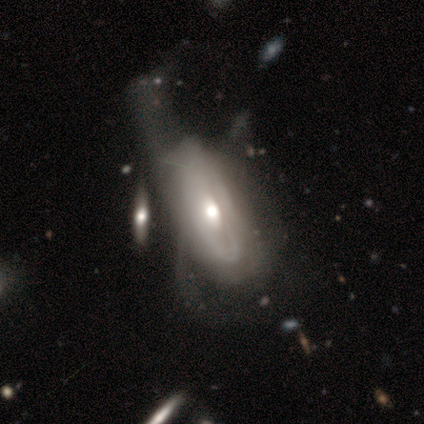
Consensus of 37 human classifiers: Smooth or featured? featured or disk (78%)
Edge-on disk? no (97%)
Bar? no (71%)
Spiral arms? yes (54%)
Spiral winding? tight (60%)
Spiral arm count? can't tell (87%)
Bulge size? moderate (71%)
Merging? major disturbance (57%)